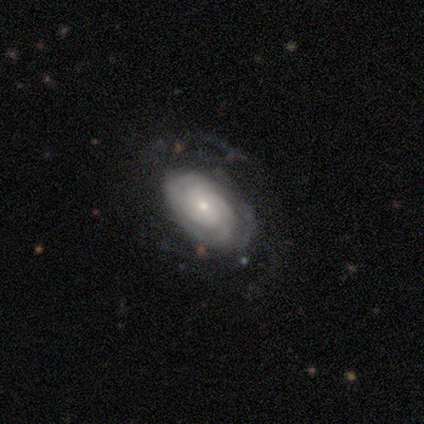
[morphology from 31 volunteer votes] smooth-or-featured: featured or disk: 71% | smooth: 26% | star or artifact: 3%
  disk-edge-on: no: 91% | yes: 9%
    bar: no: 80% | weak: 15% | strong: 5%
    has-spiral-arms: yes: 95% | no: 5%
      spiral-winding: tight: 79% | medium: 16% | loose: 5%
      spiral-arm-count: can't tell: 47% | 2: 37% | 3: 11% | 4: 5% | 1: 0% | more than 4: 0%
    bulge-size: small: 60% | moderate: 30% | dominant: 5% | large: 5% | none: 0%
  merging: none: 53% | major disturbance: 27% | minor disturbance: 17% | merger: 3%